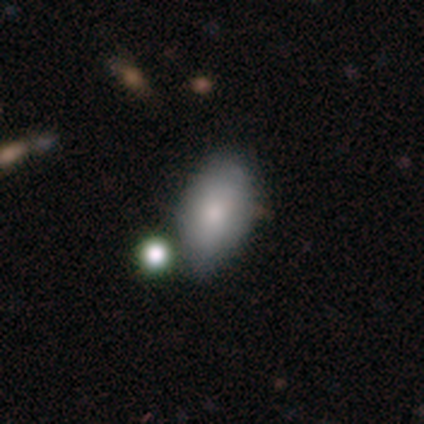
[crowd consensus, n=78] Smooth or featured?
  - smooth: 82% *
  - featured or disk: 13%
  - star or artifact: 5%
How rounded?
  - in between: 92% *
  - round: 5%
  - cigar-shaped: 3%
Merging?
  - none: 28% *
  - minor disturbance: 18%
  - merger: 16%
  - major disturbance: 3%